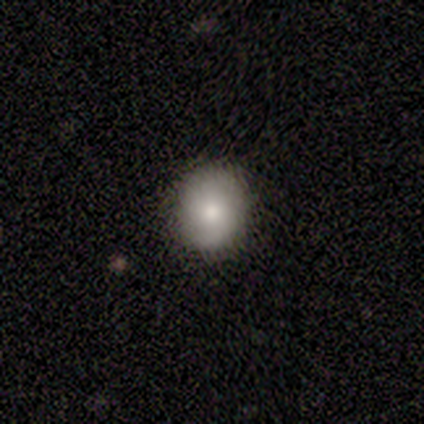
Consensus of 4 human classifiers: Morphology: type=smooth (50%); roundness=round (50%, tied with in between); merging=none (100%).